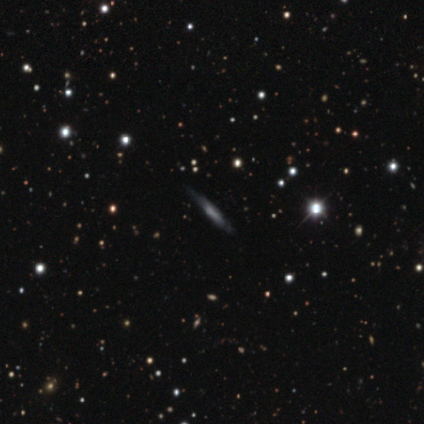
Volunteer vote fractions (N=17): Q: Smooth or featured?
A: featured or disk (65%); runner-up: smooth (29%)
Q: Edge-on disk?
A: yes (91%); runner-up: no (9%)
Q: Edge-on bulge?
A: none (50%); runner-up: rounded (40%)
Q: Merging?
A: none (81%); runner-up: minor disturbance (12%)